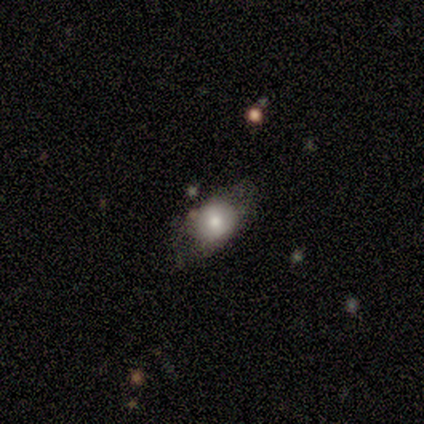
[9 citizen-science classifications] Smooth or featured?
  - featured or disk: 56% *
  - smooth: 33%
  - star or artifact: 11%
Edge-on disk?
  - no: 100% *
  - yes: 0%
Bar?
  - no: 80% *
  - weak: 20%
  - strong: 0%
Spiral arms?
  - no: 80% *
  - yes: 20%
Bulge size?
  - moderate: 80% *
  - small: 20%
  - dominant: 0%
  - large: 0%
  - none: 0%
Merging?
  - none: 50% *
  - minor disturbance: 38%
  - merger: 12%
  - major disturbance: 0%